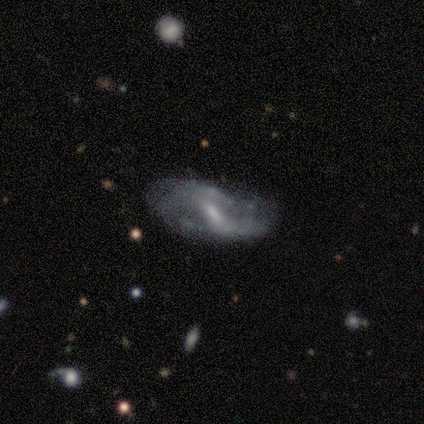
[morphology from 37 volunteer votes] Overall: featured or disk (84%). Edge-on disk: no (90%). Bar: weak (57%; strong 25%). Spiral arms: yes (75%). Spiral arm count: 2 (67%). Spiral winding: loose (52%; medium 43%). Bulge size: small (54%; moderate 25%). Merging: none (65%; minor disturbance 26%).